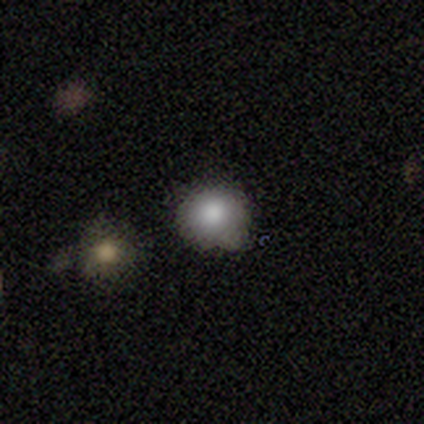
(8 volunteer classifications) This is likely a smooth galaxy (62%). How rounded: clearly round (100%). Merging: likely none (60%).